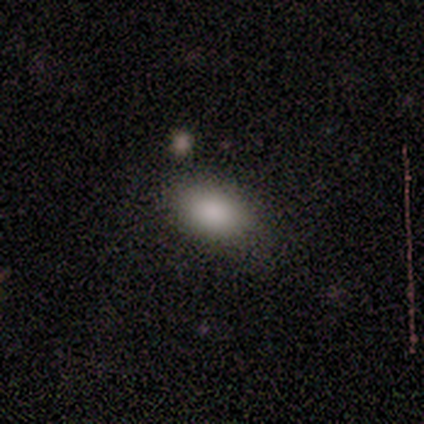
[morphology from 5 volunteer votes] Smooth or featured? smooth (100%)
How rounded? in between (80%)
Merging? none (80%)